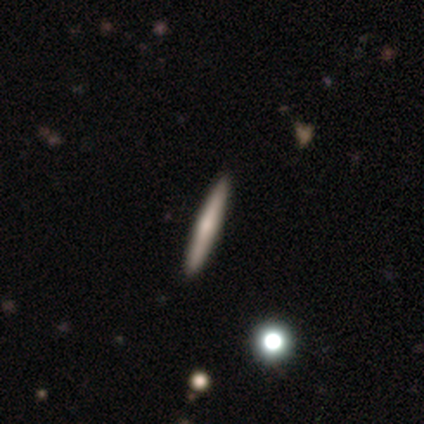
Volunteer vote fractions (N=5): Smooth or featured? featured or disk (80%)
Edge-on disk? yes (100%)
Edge-on bulge? rounded (75%)
Merging? none (80%)